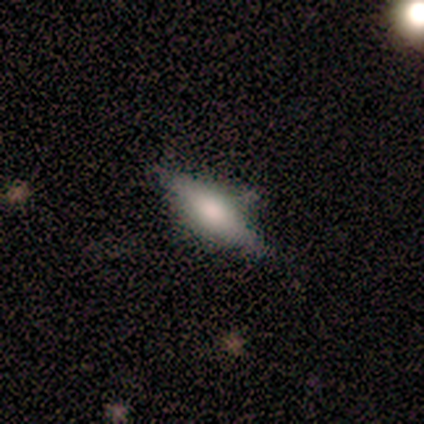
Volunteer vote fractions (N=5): Overall: smooth (60%; featured or disk 20%). How rounded: cigar-shaped (67%; in between 33%). Merging: none (75%).